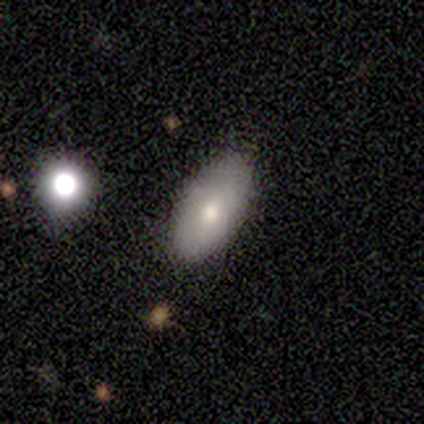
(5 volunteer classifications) This appears to be a smooth galaxy with no disk features (100%) that is in between round and cigar-shaped (80%). Merging: none (100%).